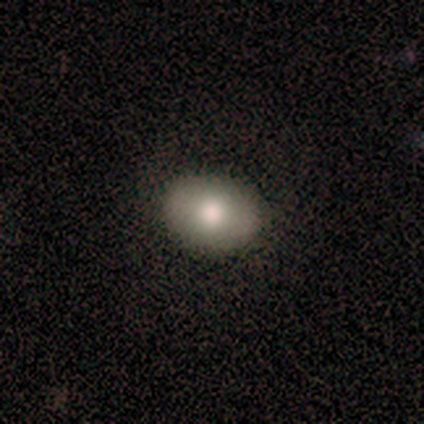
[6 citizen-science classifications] smooth-or-featured: smooth: 100% | featured or disk: 0% | star or artifact: 0%
  how-rounded: in between: 67% | round: 33% | cigar-shaped: 0%
  merging: none: 100% | minor disturbance: 0% | major disturbance: 0% | merger: 0%